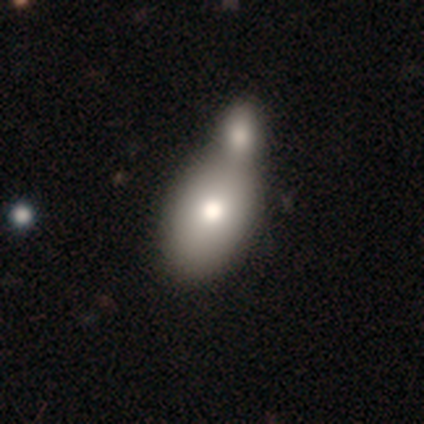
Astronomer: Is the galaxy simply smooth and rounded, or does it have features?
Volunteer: smooth — 76%.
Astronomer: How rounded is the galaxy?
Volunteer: in between — 95%.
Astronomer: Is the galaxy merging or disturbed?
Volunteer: merger — 78%.